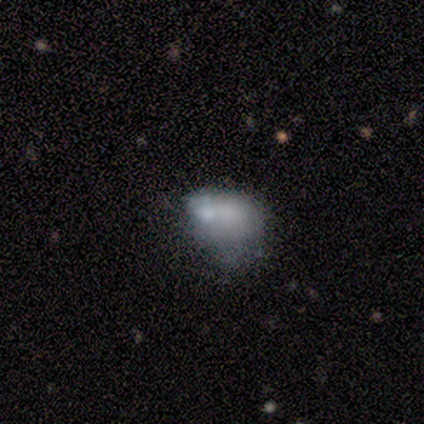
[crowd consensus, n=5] Volunteers were most divided on "merging" (2-way tie): none: 40%, merger: 40%, major disturbance: 20%, minor disturbance: 0%. More confident: smooth or featured — smooth (100%); how rounded — in between (80%).